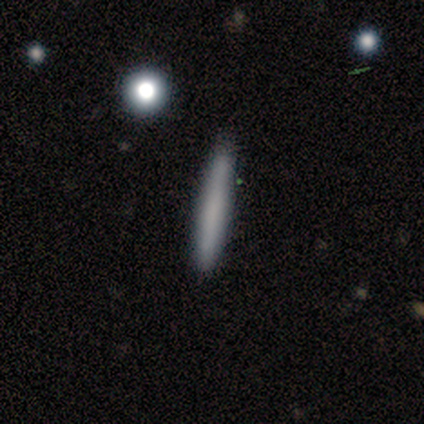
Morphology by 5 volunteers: Smooth or featured? smooth (60%)
How rounded? cigar-shaped (100%)
Merging? none (80%)